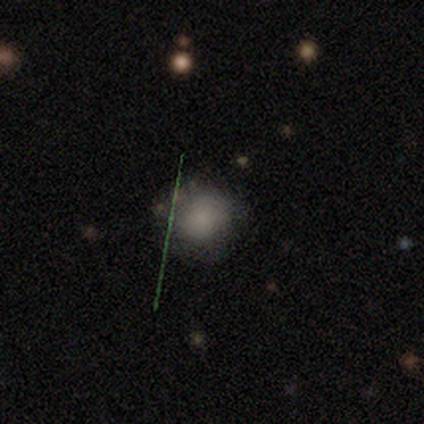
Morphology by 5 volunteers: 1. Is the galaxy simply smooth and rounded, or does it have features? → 80% smooth, 20% star or artifact, 0% featured or disk.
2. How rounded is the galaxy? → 50% round (tied), 50% in between (tied), 0% cigar-shaped.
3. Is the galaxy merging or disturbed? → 50% none, 25% minor disturbance, 25% major disturbance, 0% merger.